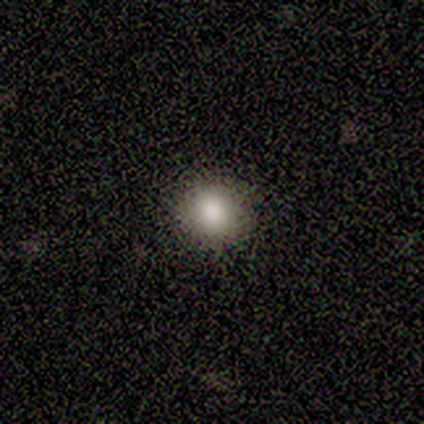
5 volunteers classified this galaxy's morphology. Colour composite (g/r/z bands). It shows a smooth galaxy with no disk features (100%) that is in between round and cigar-shaped (60%). Merging: none (60%).